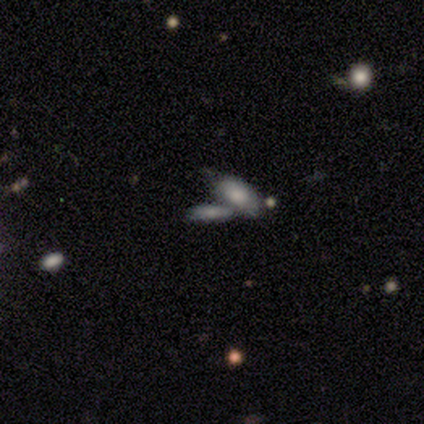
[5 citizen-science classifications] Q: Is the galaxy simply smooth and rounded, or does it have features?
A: smooth — 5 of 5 (100%).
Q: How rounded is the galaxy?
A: in between — 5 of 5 (100%).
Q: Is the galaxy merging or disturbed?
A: merger — 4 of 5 (80%).